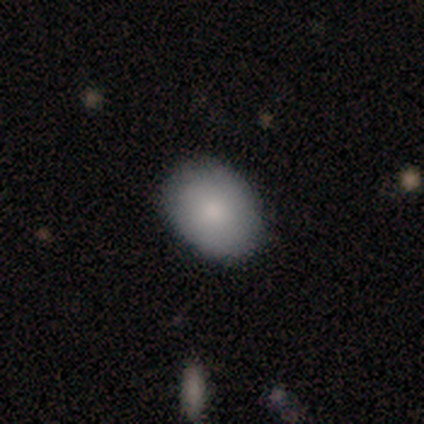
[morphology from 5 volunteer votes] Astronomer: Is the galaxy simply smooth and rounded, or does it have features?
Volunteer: smooth — 100%.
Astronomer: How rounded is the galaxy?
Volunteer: in between — 80%.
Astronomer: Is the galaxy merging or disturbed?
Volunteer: none — 80%.